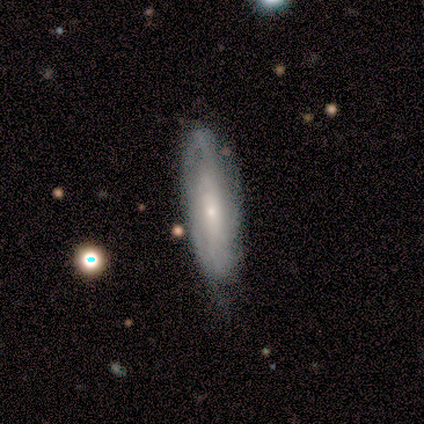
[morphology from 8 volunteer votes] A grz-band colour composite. It shows a featured or disk galaxy (75%) with no bar (60%), 2 (50%, tied with can't tell) tight (75%) spiral arms (80%) and a small central bulge (80%). Merging: none (86%).